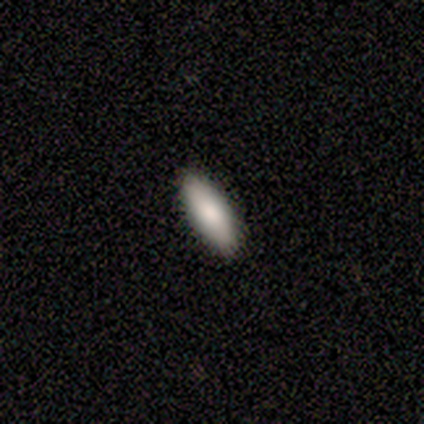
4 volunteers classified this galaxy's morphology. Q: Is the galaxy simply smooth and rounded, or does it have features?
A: smooth — 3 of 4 (75%).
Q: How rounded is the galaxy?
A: in between — 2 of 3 (67%).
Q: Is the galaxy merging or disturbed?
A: none — 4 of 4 (100%).